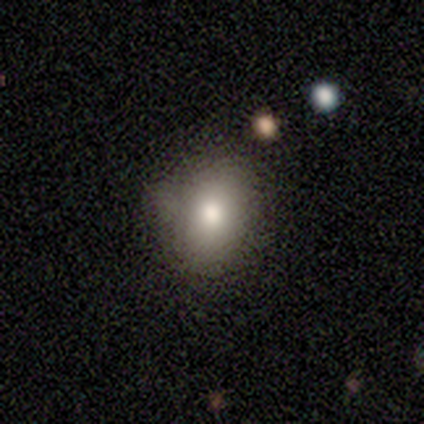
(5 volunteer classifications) Smooth or featured: smooth — 80% (star or artifact — 20%)
How rounded: in between — 75% (round — 25%)
Merging: none — 75% (major disturbance — 25%)